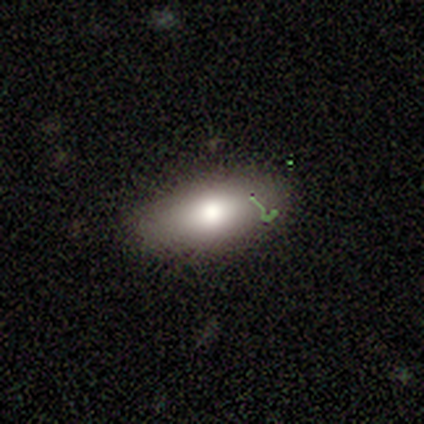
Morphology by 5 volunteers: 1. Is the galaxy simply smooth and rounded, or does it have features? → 80% smooth, 20% featured or disk, 0% star or artifact.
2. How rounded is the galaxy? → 100% in between, 0% round, 0% cigar-shaped.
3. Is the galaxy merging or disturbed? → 80% none, 20% minor disturbance, 0% major disturbance, 0% merger.